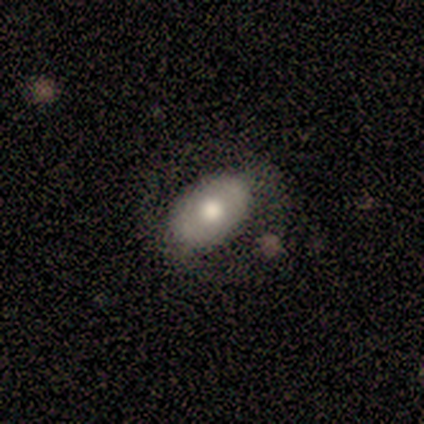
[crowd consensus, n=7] Q: Smooth or featured?
A: smooth (71%); runner-up: featured or disk (29%)
Q: How rounded?
A: in between (100%)
Q: Merging?
A: none (71%); runner-up: minor disturbance (29%)